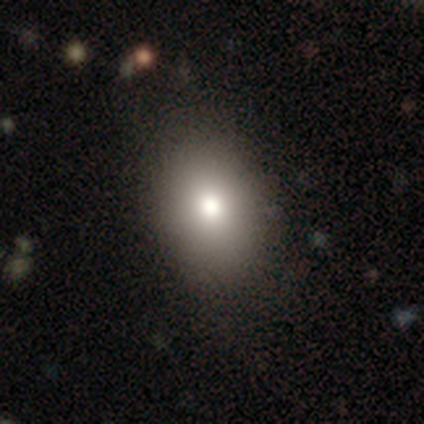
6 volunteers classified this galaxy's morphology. smooth-or-featured: smooth: 83% | featured or disk: 17% | star or artifact: 0%
  how-rounded: in between: 60% | round: 40% | cigar-shaped: 0%
  merging: none: 67% | minor disturbance: 17% | major disturbance: 17% | merger: 0%